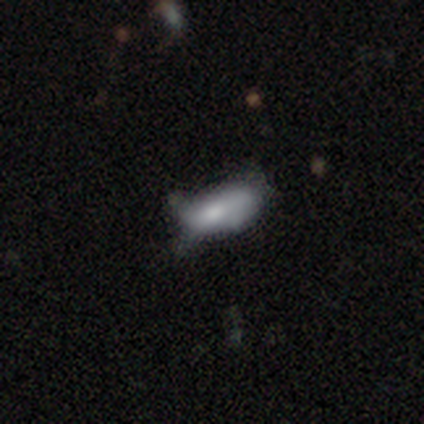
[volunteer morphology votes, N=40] smooth-or-featured: smooth: 52% | featured or disk: 38% | star or artifact: 10%
  how-rounded: in between: 100% | round: 0% | cigar-shaped: 0%
  merging: minor disturbance: 28% | none: 22% | major disturbance: 22% | merger: 0%